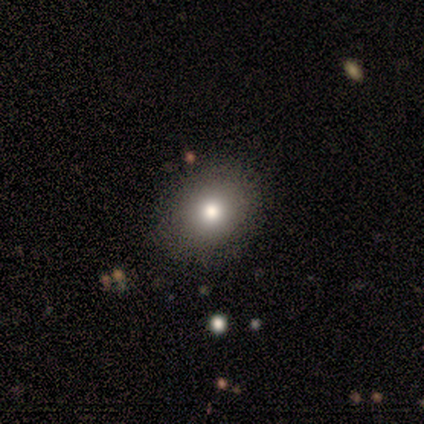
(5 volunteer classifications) This is clearly a smooth galaxy (80%). How rounded: likely in between (75%). Merging: clearly none (100%).